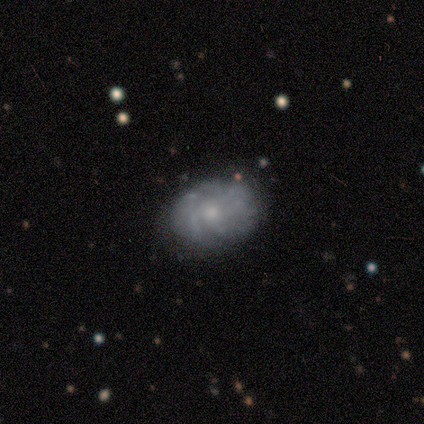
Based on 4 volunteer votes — Smooth or featured?
  - smooth: 50% * (tied)
  - featured or disk: 50% * (tied)
  - star or artifact: 0%
How rounded?
  - round: 50% * (tied)
  - in between: 50% * (tied)
  - cigar-shaped: 0%
Merging?
  - none: 75% *
  - minor disturbance: 25%
  - major disturbance: 0%
  - merger: 0%